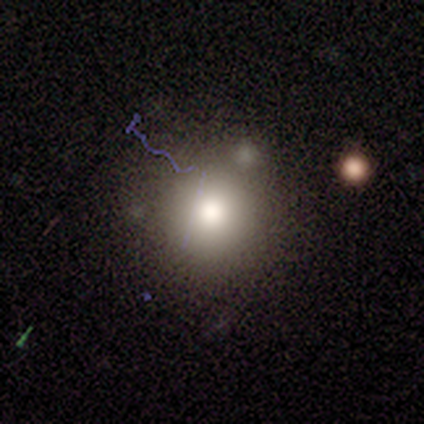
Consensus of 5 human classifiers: Smooth or featured?
  - smooth: 100% *
  - featured or disk: 0%
  - star or artifact: 0%
How rounded?
  - round: 100% *
  - in between: 0%
  - cigar-shaped: 0%
Merging?
  - none: 80% *
  - minor disturbance: 20%
  - major disturbance: 0%
  - merger: 0%